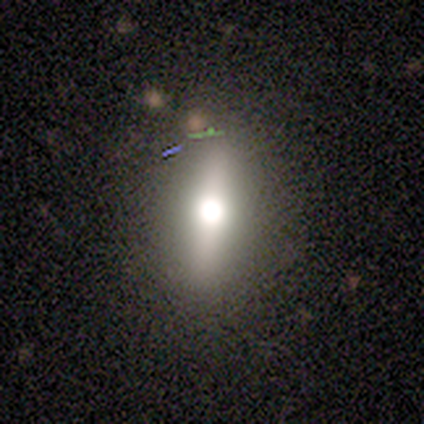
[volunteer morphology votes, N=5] smooth_or_featured: featured or disk (p=0.60) [alt: smooth p=0.20]
disk_edge_on: no (p=1.00)
bar: strong (p=0.67) [alt: no p=0.33]
has_spiral_arms: no (p=1.00)
bulge_size: dominant (p=0.33) [tied with: large p=0.33, small p=0.33]
merging: none (p=0.75) [alt: minor disturbance p=0.25]